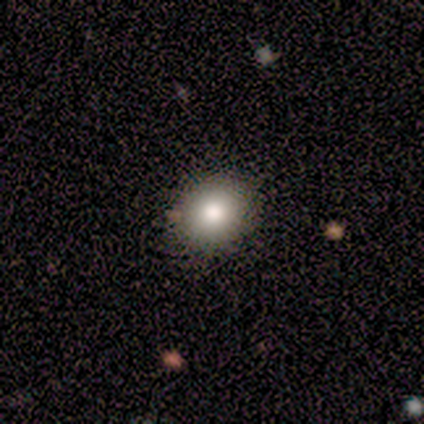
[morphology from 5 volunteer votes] type=featured or disk (60%); edge-on=no (100%); bar=no (67%); spiral arms=no (67%); bulge=large (67%); merging=none (100%).